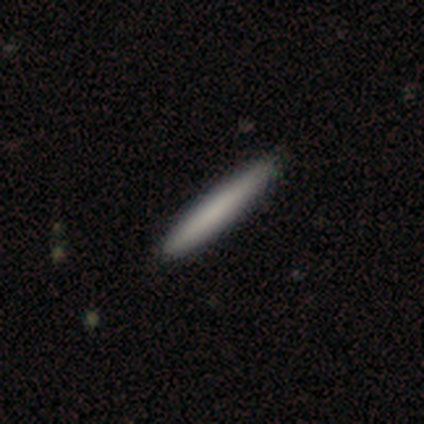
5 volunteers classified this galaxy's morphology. Q: Smooth or featured?
A: smooth (100%)
Q: How rounded?
A: cigar-shaped (100%)
Q: Merging?
A: none (80%); runner-up: minor disturbance (20%)